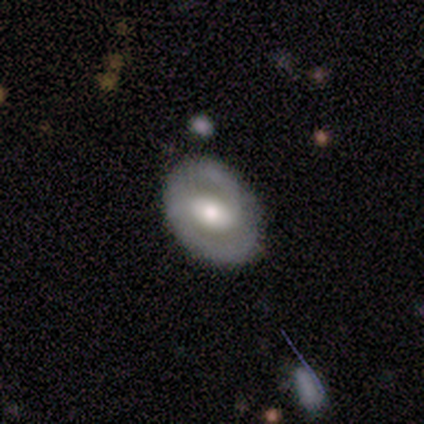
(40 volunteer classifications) This appears to be a featured or disk galaxy (75%) with a weak bar (41%), 2 (100%) medium (55%) spiral arms (69%) and a moderate central bulge (69%). Merging: none (51%).